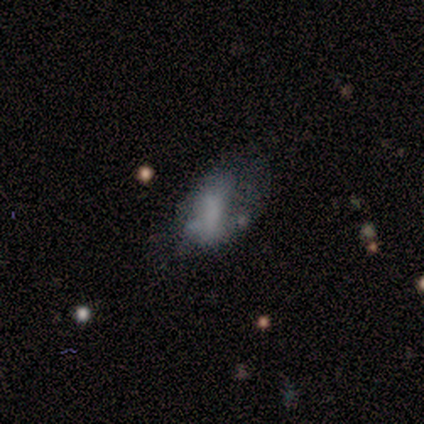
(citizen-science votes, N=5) Volunteers were most divided on "merging": major disturbance: 60%, none: 40%, minor disturbance: 0%, merger: 0%. More confident: how rounded — in between (100%); smooth or featured — smooth (80%).